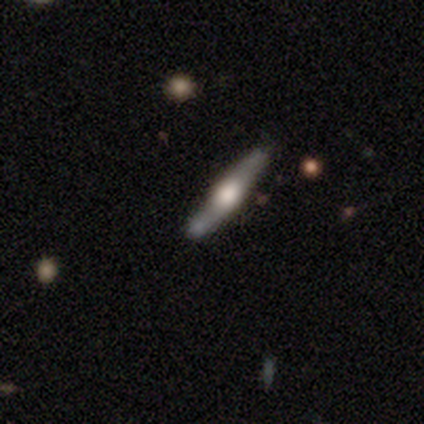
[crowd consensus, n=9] Overall: featured or disk (89%). Edge-on disk: yes (88%). Edge-on bulge: rounded (100%). Merging: none (75%).